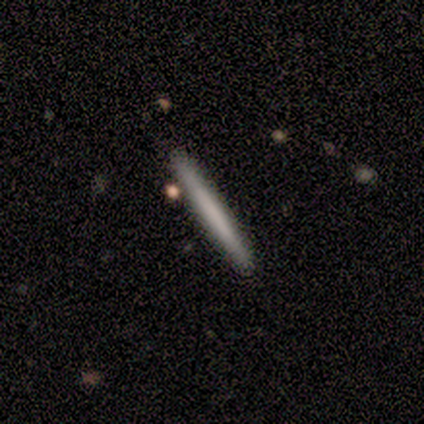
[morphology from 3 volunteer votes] This appears to be a smooth galaxy with no disk features (67%) that is cigar-shaped (100%). Merging: none (100%).